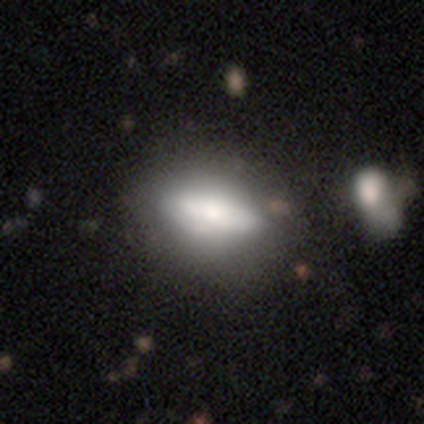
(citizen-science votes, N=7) A smooth galaxy with no disk features (71%) that is in between round and cigar-shaped (80%). Merging: none (86%).